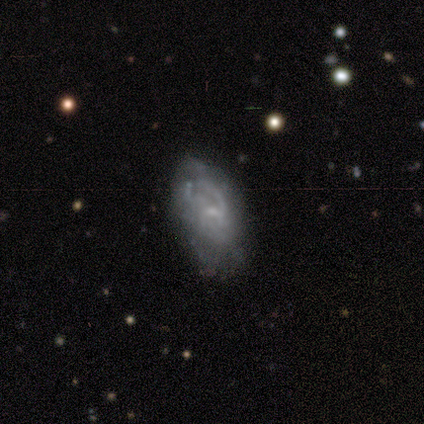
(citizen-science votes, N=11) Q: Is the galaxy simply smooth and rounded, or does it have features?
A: featured or disk — 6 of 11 (55%).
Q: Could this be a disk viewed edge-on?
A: no — 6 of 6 (100%).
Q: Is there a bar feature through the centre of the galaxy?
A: weak — 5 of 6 (83%).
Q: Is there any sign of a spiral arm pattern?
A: yes — 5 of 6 (83%).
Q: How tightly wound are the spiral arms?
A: medium — 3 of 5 (60%).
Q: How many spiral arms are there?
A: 1 — 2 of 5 (40%, tied with 2).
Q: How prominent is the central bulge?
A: moderate — 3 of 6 (50%, tied with small).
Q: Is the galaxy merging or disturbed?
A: none — 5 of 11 (45%, tied with minor disturbance).